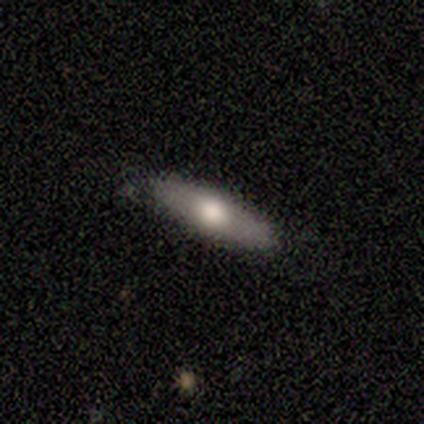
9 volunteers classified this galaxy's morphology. This appears to be a smooth galaxy with no disk features (67%) that is in between round and cigar-shaped (67%). Merging: none (62%).